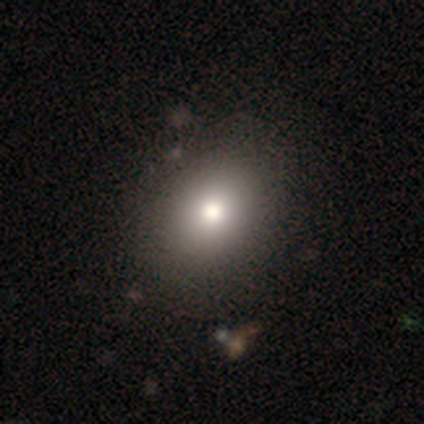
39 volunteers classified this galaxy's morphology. A smooth galaxy with no disk features (100%) that is round (59%).

Vote fractions:
- Smooth or featured? smooth: 100% / featured or disk: 0% / star or artifact: 0%
- How rounded? round: 59% / in between: 41% / cigar-shaped: 0%
- Merging? none: 62% / minor disturbance: 5% / major disturbance: 5% / merger: 3%